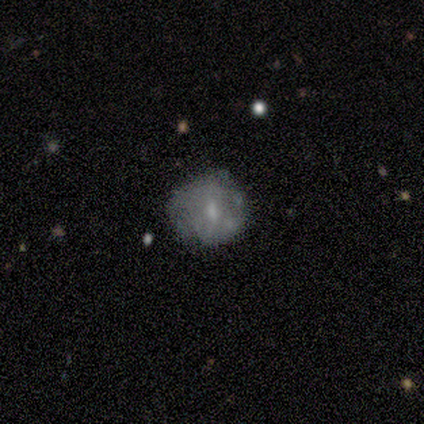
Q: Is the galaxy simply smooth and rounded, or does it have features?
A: smooth — 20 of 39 (51%).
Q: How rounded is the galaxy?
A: round — 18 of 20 (90%).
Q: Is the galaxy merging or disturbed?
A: none — 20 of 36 (56%).